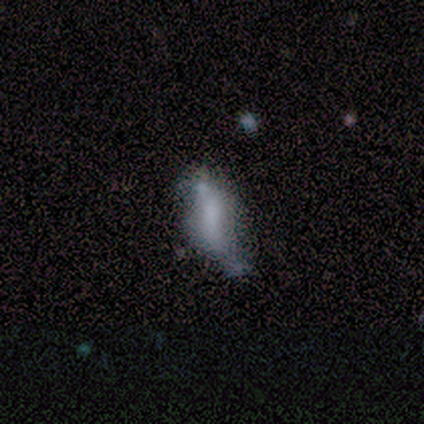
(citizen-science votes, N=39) Volunteers were most divided on "merging": minor disturbance: 38%, none: 30%, major disturbance: 16%, merger: 16%. More confident: how rounded — in between (71%); smooth or featured — smooth (54%).